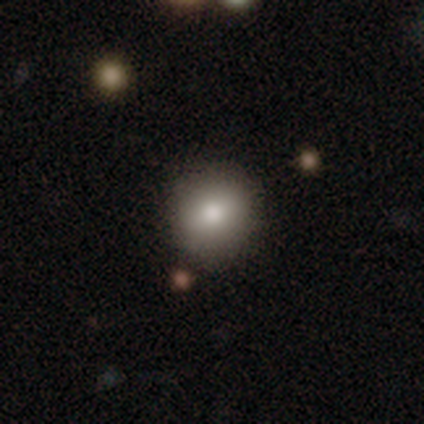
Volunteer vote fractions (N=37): A smooth galaxy with no disk features (78%) that is round (90%).

Vote fractions:
- Smooth or featured? smooth: 78% / star or artifact: 14% / featured or disk: 8%
- How rounded? round: 90% / in between: 10% / cigar-shaped: 0%
- Merging? none: 91% / minor disturbance: 9% / major disturbance: 0% / merger: 0%